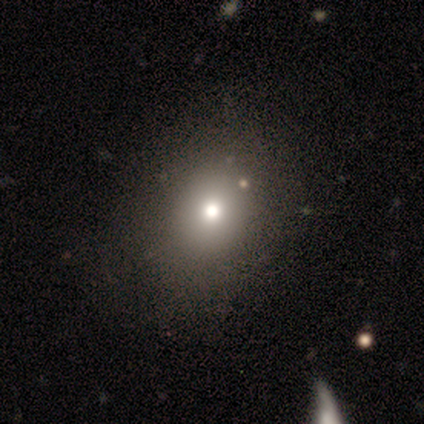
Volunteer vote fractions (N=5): Overall: smooth (80%). How rounded: round (100%). Merging: none (75%).